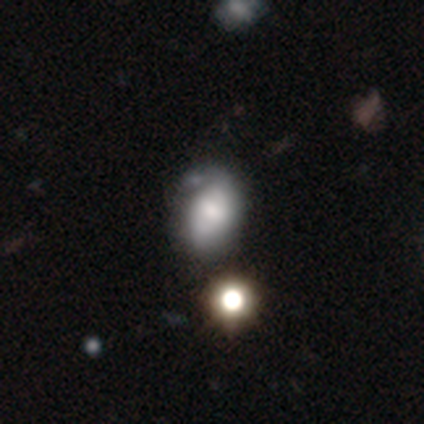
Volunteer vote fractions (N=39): Overall: smooth (54%; featured or disk 38%). How rounded: in between (95%). Merging: minor disturbance (33%; none 22%).